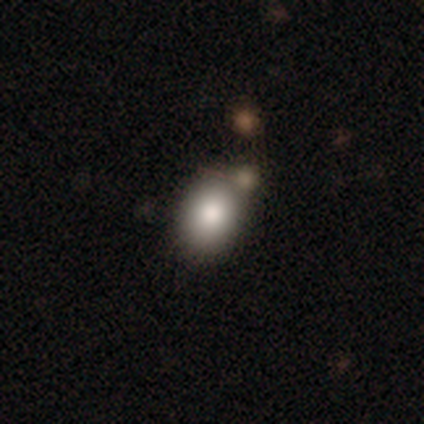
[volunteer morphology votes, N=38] smooth_or_featured: smooth (p=0.89) [alt: star or artifact p=0.08]
how_rounded: in between (p=0.74) [alt: round p=0.26]
merging: none (p=0.63) [alt: merger p=0.23]